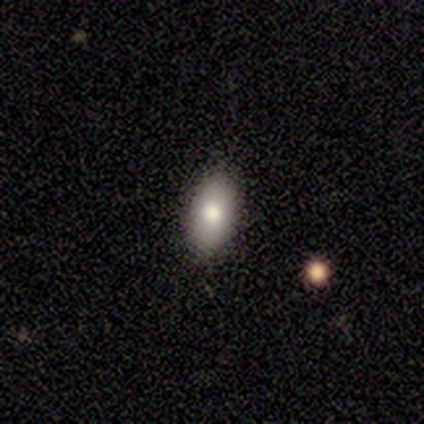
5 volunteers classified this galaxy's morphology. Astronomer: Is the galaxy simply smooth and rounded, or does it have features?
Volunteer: smooth — 80%.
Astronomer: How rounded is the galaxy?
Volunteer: in between — 100%.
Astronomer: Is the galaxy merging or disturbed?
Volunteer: none — 80%.